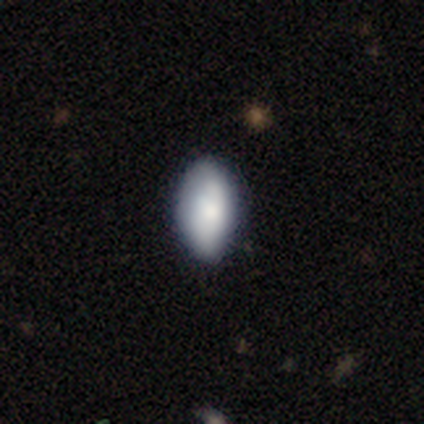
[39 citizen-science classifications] Volunteers were most divided on "merging": none: 66%, minor disturbance: 24%, major disturbance: 8%, merger: 3%. More confident: how rounded — in between (97%); smooth or featured — smooth (79%).